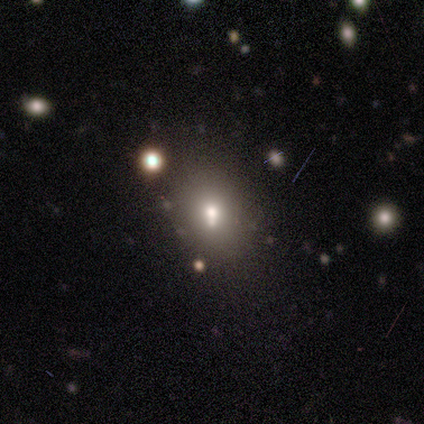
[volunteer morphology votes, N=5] smooth-or-featured: smooth: 60% | featured or disk: 20% | star or artifact: 20%
  how-rounded: in between: 67% | round: 33% | cigar-shaped: 0%
  merging: none: 50% (tied) | merger: 50% (tied) | minor disturbance: 0% | major disturbance: 0%